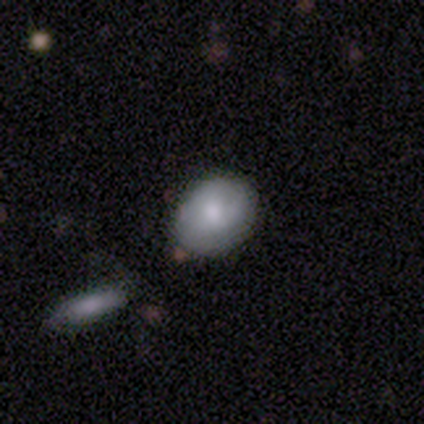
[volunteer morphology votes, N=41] A smooth galaxy with no disk features (66%) that is round (70%). Merging: none (78%).